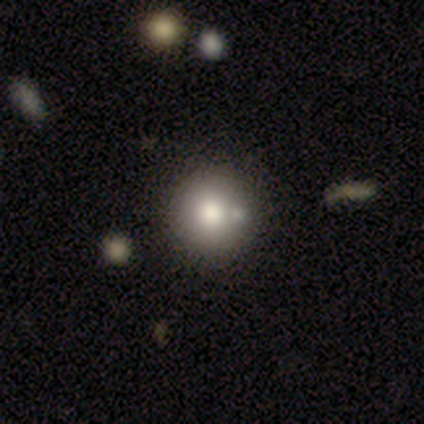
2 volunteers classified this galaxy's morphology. Smooth or featured? 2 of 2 (100%) said smooth. How rounded? 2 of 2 (100%) said round. Merging? 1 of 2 (50%, tied with minor disturbance) said none.